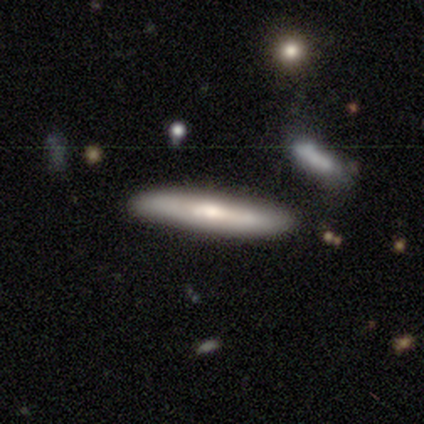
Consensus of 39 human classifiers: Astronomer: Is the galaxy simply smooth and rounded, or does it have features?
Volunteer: smooth — 46%, tied with featured or disk at 46%.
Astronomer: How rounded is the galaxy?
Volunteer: cigar-shaped — 100%.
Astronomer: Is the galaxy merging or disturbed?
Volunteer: none — 92%.